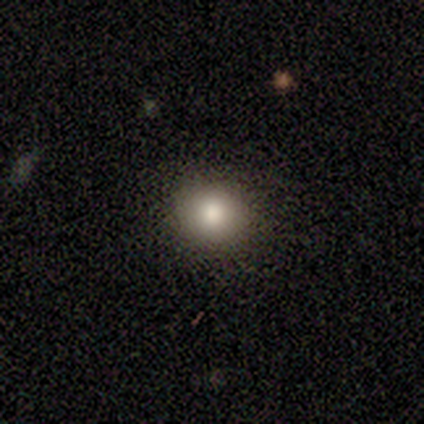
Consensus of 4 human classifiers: smooth-or-featured: smooth: 75% | featured or disk: 25% | star or artifact: 0%
  how-rounded: round: 100% | in between: 0% | cigar-shaped: 0%
  merging: none: 100% | minor disturbance: 0% | major disturbance: 0% | merger: 0%